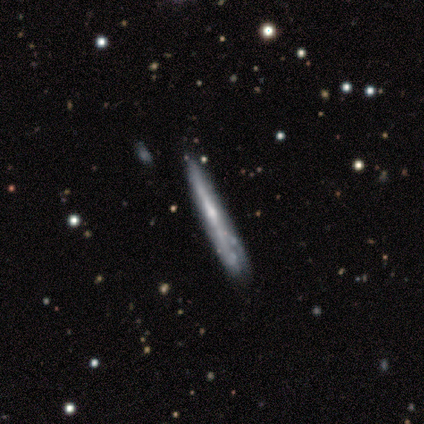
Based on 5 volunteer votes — This appears to be a smooth galaxy with no disk features (60%) that is cigar-shaped (100%). Merging: none (80%).